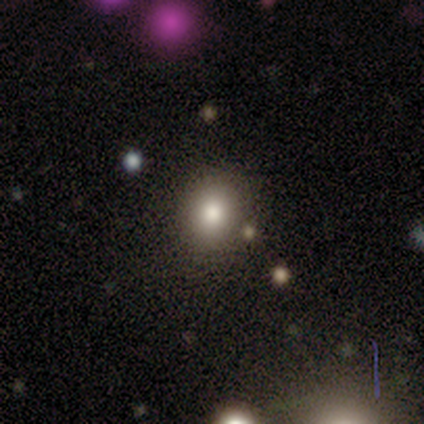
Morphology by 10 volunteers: This is possibly a smooth galaxy (50%). How rounded: clearly round (80%). Merging: clearly none (88%).